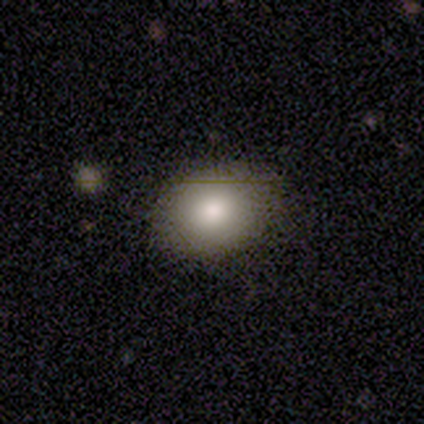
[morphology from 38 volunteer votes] Smooth or featured? 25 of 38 (66%) said smooth. How rounded? 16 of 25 (64%) said in between. Merging? 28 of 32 (88%) said none.